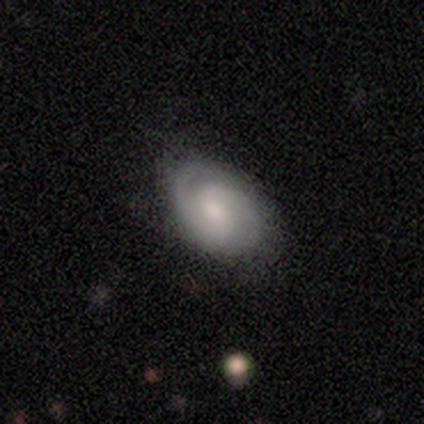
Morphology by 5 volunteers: A featured or disk galaxy (80%) with a weak bar (50%, tied with no), 2 (100%) tight (50%) spiral arms (100%) and a small central bulge (75%). Merging: none (60%).